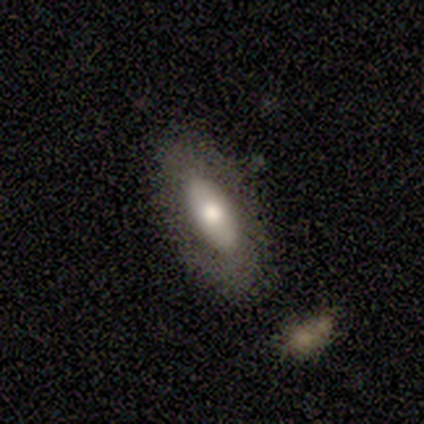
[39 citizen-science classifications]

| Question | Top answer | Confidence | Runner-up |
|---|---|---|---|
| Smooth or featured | featured or disk | 49% | smooth (46%) |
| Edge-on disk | no | 84% | yes (16%) |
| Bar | no | 69% | strong (19%) |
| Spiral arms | no | 75% | yes (25%) |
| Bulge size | moderate | 69% | large (25%) |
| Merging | none | 86% | minor disturbance (8%) |